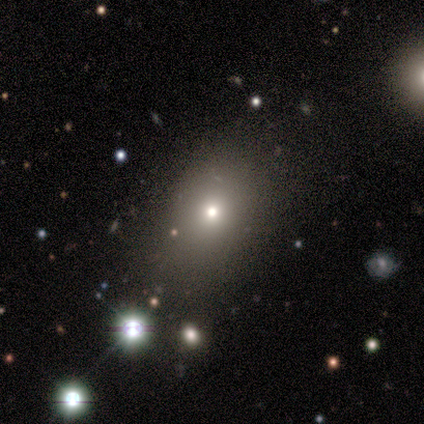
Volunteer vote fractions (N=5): Smooth or featured? smooth (80%)
How rounded? in between (75%)
Merging? none (100%)